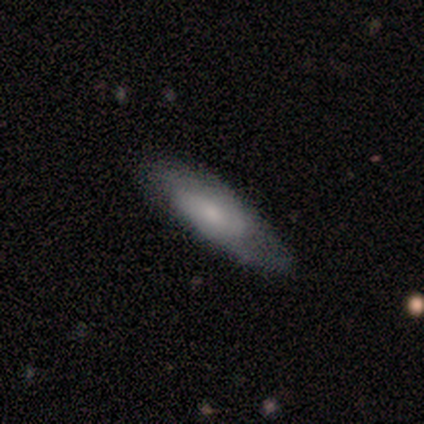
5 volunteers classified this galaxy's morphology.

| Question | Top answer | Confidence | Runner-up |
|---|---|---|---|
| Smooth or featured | smooth | 40% | tied: featured or disk (40%) |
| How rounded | cigar-shaped | 100% | — |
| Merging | none | 50% | tied: minor disturbance (50%) |